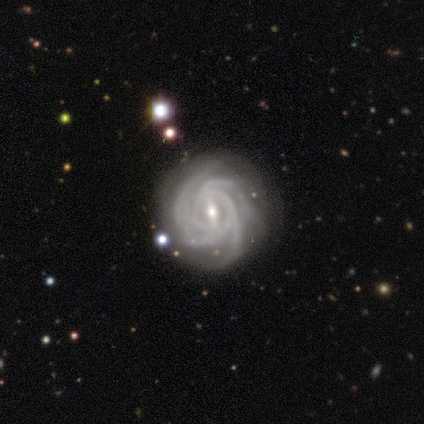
Smooth or featured: featured or disk — 90% (smooth — 8%)
Edge-on disk: no — 100%
Bar: strong — 47% (weak — 39%)
Spiral arms: yes — 100%
Spiral winding: tight — 86% (medium — 11%)
Spiral arm count: 4 — 58% (more than 4 — 19%)
Bulge size: small — 67% (moderate — 31%)
Merging: none — 82% (minor disturbance — 13%)